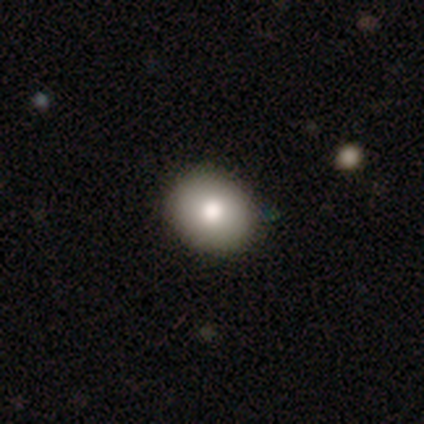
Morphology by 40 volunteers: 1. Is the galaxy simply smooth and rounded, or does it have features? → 85% smooth, 10% featured or disk, 5% star or artifact.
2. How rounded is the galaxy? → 53% in between, 47% round, 0% cigar-shaped.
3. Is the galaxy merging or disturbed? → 66% none, 5% minor disturbance, 3% merger, 0% major disturbance.